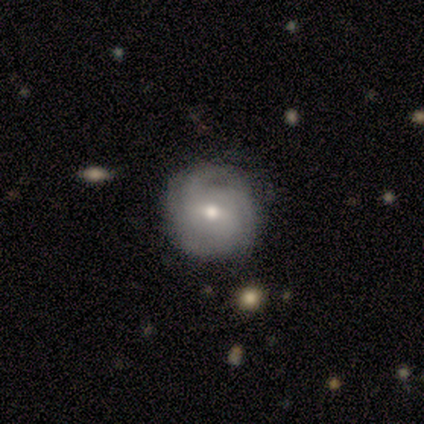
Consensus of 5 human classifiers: Q: Smooth or featured?
A: featured or disk (100%)
Q: Edge-on disk?
A: no (100%)
Q: Bar?
A: weak (60%); runner-up: no (40%)
Q: Spiral arms?
A: yes (80%); runner-up: no (20%)
Q: Spiral winding?
A: tight (50%); tied with: medium (50%)
Q: Spiral arm count?
A: 3 (50%); runner-up: 2 (25%)
Q: Bulge size?
A: small (60%); runner-up: moderate (40%)
Q: Merging?
A: none (100%)